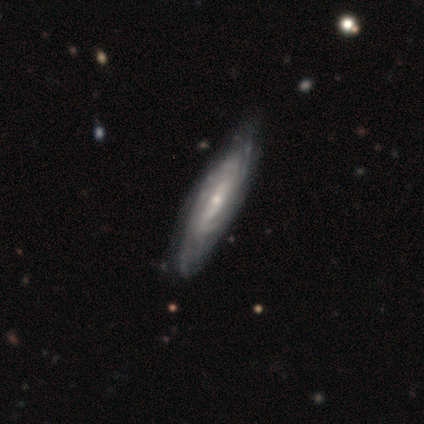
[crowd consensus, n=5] This appears to be a featured or disk galaxy (100%) with no bar (67%), 2 (50%, tied with can't tell) tight (50%, tied with medium) spiral arms (67%) and a small central bulge (100%). Merging: none (100%).